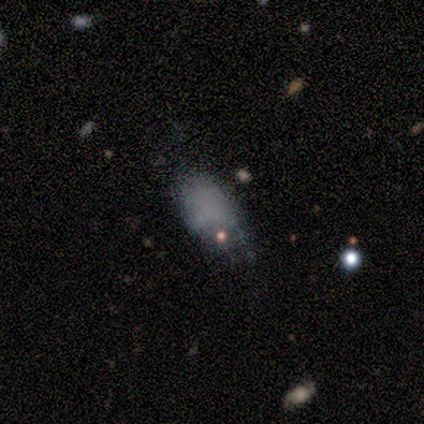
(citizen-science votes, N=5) smooth 80%, featured or disk 20%, star or artifact 0%. Down the decision tree: how rounded — in between (100%); merging — none (60%).